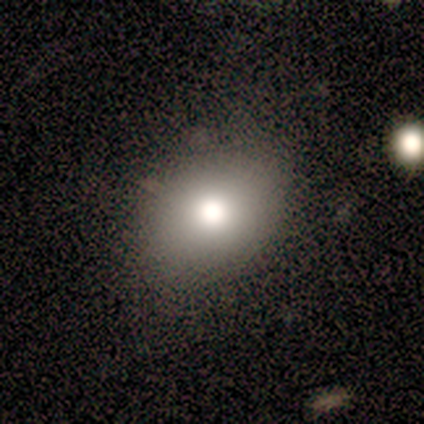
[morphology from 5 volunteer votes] A smooth galaxy with no disk features (60%) that is in between round and cigar-shaped (67%). Merging: none (80%).